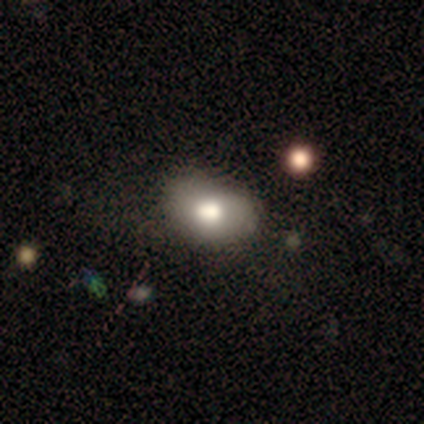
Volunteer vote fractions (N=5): Smooth or featured? smooth (100%)
How rounded? in between (100%)
Merging? minor disturbance (60%)